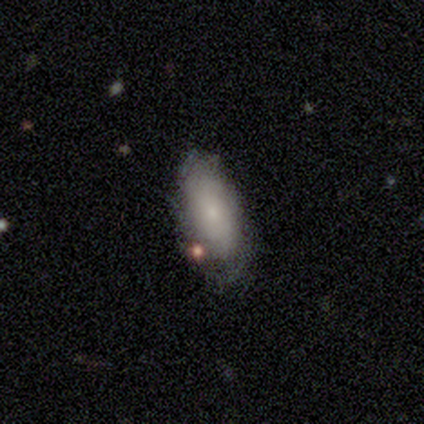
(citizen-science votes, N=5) This appears to be a featured or disk galaxy (80%) with no bar (100%), no spiral arms (75%) and a small central bulge (50%). Merging: none (40%, tied with minor disturbance).